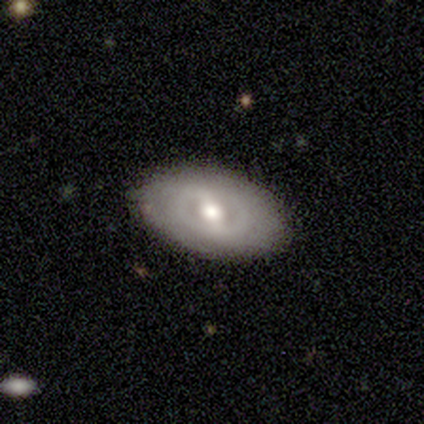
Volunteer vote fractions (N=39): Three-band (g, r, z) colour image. It shows a featured or disk galaxy (64%) with a weak bar (57%), no spiral arms (65%) and a moderate central bulge (65%). Merging: none (79%).